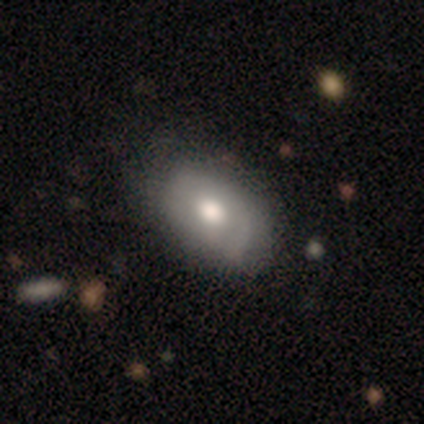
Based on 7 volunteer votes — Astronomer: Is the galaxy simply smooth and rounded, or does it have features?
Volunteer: smooth — 71%.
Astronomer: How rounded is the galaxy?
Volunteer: in between — 60% (runner-up: round, 40%).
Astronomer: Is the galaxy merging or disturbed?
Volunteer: none — 71%.